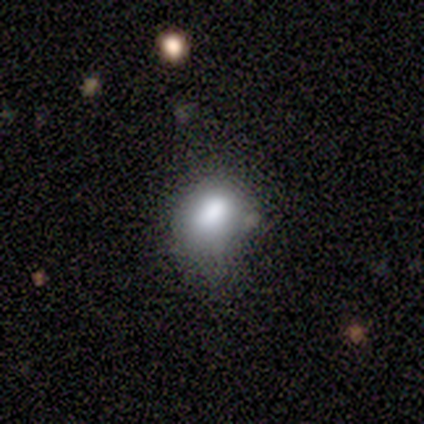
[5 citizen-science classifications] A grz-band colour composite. It shows a smooth galaxy with no disk features (60%) that is round (67%). Merging: minor disturbance (75%).